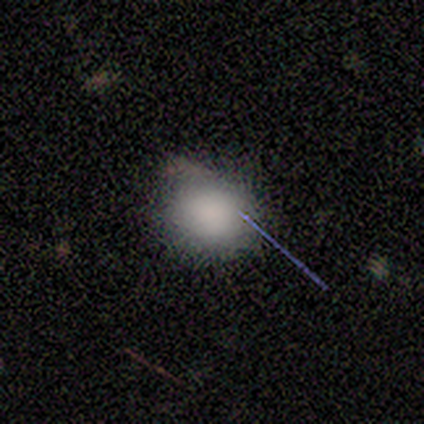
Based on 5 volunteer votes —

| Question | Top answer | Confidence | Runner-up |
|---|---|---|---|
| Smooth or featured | smooth | 100% | — |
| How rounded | round | 100% | — |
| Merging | none | 80% | minor disturbance (20%) |